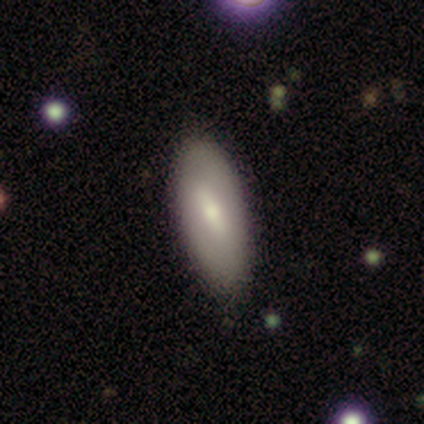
This appears to be a featured or disk galaxy (75%) with a strong bar (67%), no spiral arms (67%) and a moderate central bulge (100%). Merging: none (75%).